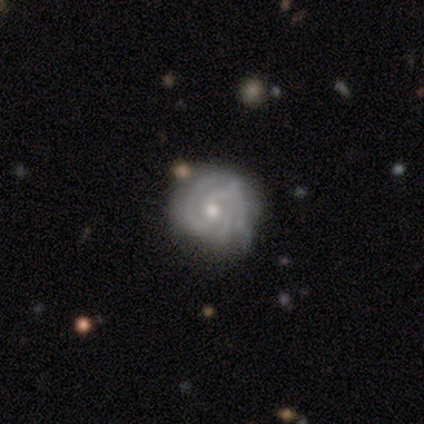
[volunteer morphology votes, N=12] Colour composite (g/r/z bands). It shows a featured or disk galaxy (83%) with no bar (90%), 3 (60%) tight (70%) spiral arms (100%) and a moderate central bulge (50%, tied with small). Merging: none (92%).